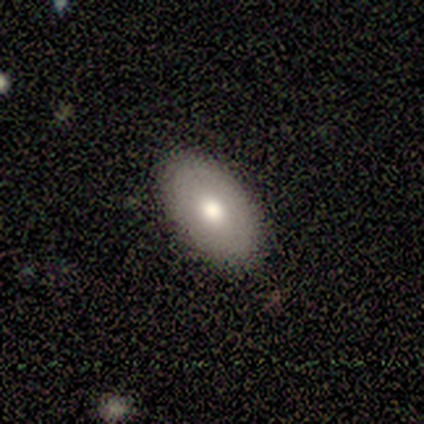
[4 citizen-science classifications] A smooth galaxy with no disk features (100%) that is in between round and cigar-shaped (100%). Merging: none (100%).